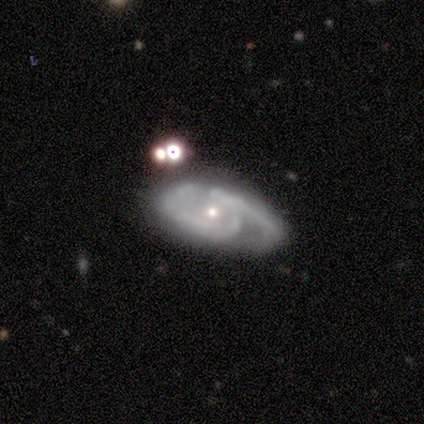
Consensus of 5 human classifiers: Overall: featured or disk (100%). Edge-on disk: no (100%). Bar: no (60%; weak 40%). Spiral arms: yes (80%). Spiral arm count: 2 (50%; 1 25%). Spiral winding: tight (50%, tied with medium). Bulge size: small (80%). Merging: none (60%; minor disturbance 40%).